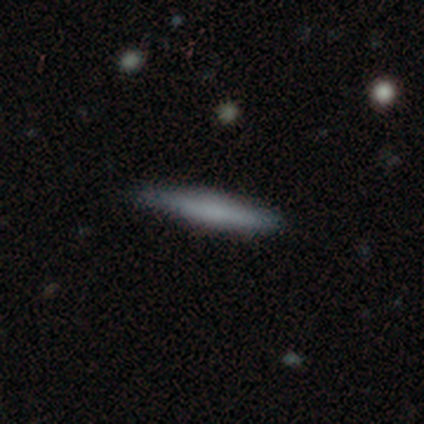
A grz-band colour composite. It shows a smooth galaxy with no disk features (56%) that is cigar-shaped (100%). Merging: none (71%).